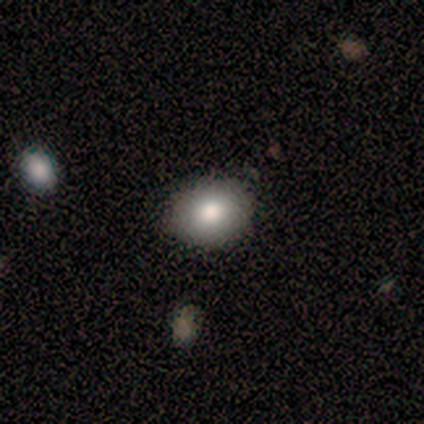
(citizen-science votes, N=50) Q: Smooth or featured?
A: smooth (90%); runner-up: star or artifact (6%)
Q: How rounded?
A: round (51%); runner-up: in between (49%)
Q: Merging?
A: none (87%); runner-up: minor disturbance (6%)